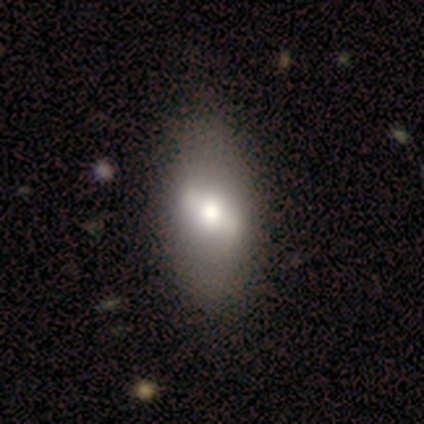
This is likely a featured or disk galaxy (60%). It is clearly not viewed edge-on (100%). Bar: likely strong (67%). Spiral arm pattern: clearly no (100%). Central bulge: marginally large (33%, tied with moderate and small). Merging: likely none (67%).